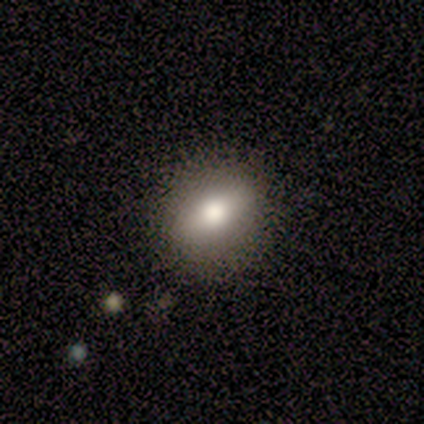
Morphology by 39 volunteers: Volunteers were most divided on "how rounded" (2-way tie): round: 48%, in between: 48%, cigar-shaped: 3%. More confident: smooth or featured — smooth (85%); merging — none (59%).